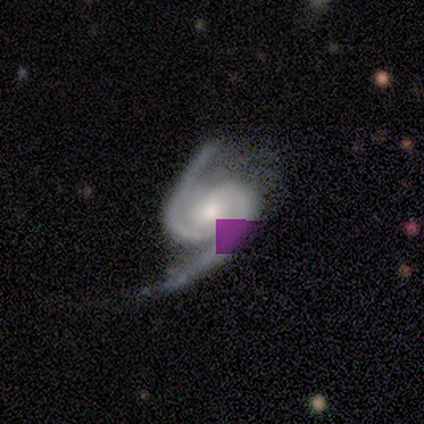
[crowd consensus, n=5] Morphology: type=featured or disk (100%); edge-on=no (100%); bar=no (60%); spiral arms=yes (100%); winding=medium (80%); arm count=2 (80%); bulge=small (60%); merging=none (40%, tied with minor disturbance).